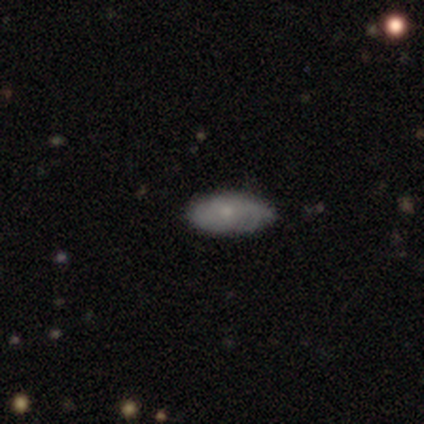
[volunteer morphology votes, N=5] smooth_or_featured: smooth (p=0.80) [alt: featured or disk p=0.20]
how_rounded: in between (p=1.00)
merging: minor disturbance (p=0.60) [alt: none p=0.40]